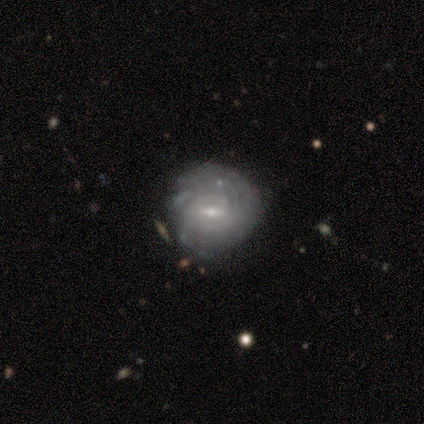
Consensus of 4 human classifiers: smooth-or-featured: featured or disk: 100% | smooth: 0% | star or artifact: 0%
  disk-edge-on: no: 100% | yes: 0%
    bar: no: 50% | strong: 25% | weak: 25%
    has-spiral-arms: yes: 75% | no: 25%
      spiral-winding: tight: 67% | medium: 33% | loose: 0%
      spiral-arm-count: 2: 67% | can't tell: 33% | 1: 0% | 3: 0% | 4: 0% | more than 4: 0%
    bulge-size: small: 100% | dominant: 0% | large: 0% | moderate: 0% | none: 0%
  merging: none: 75% | minor disturbance: 25% | major disturbance: 0% | merger: 0%